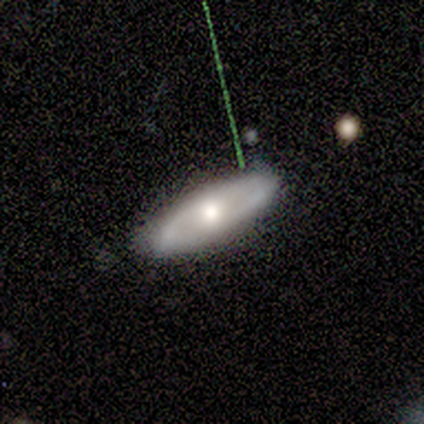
Q: Smooth or featured?
A: featured or disk (60%); runner-up: smooth (40%)
Q: Edge-on disk?
A: no (67%); runner-up: yes (33%)
Q: Bar?
A: weak (50%); tied with: no (50%)
Q: Spiral arms?
A: yes (50%); tied with: no (50%)
Q: Spiral winding?
A: medium (100%)
Q: Spiral arm count?
A: 2 (100%)
Q: Bulge size?
A: moderate (100%)
Q: Merging?
A: none (60%); runner-up: minor disturbance (40%)